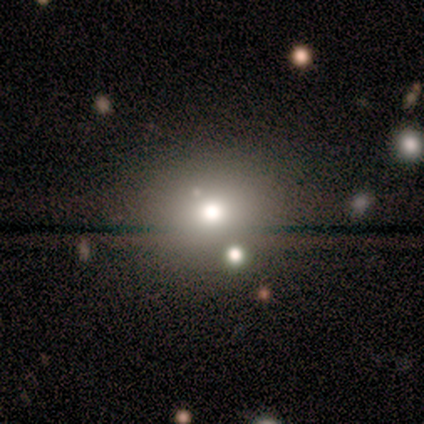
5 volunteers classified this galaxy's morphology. A smooth galaxy with no disk features (60%) that is round (100%).

Vote fractions:
- Smooth or featured? smooth: 60% / featured or disk: 20% / star or artifact: 20%
- How rounded? round: 100% / in between: 0% / cigar-shaped: 0%
- Merging? none: 100% / minor disturbance: 0% / major disturbance: 0% / merger: 0%